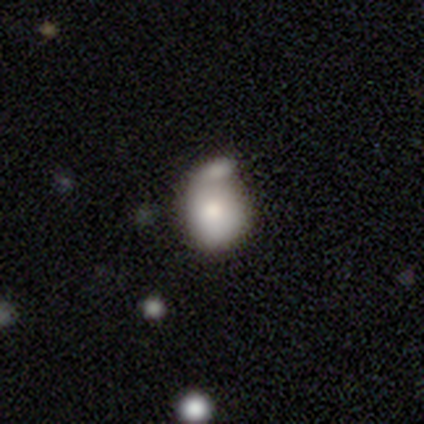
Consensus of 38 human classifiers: smooth-or-featured: smooth: 68% | featured or disk: 29% | star or artifact: 3%
  how-rounded: round: 58% | in between: 42% | cigar-shaped: 0%
  merging: none: 35% | minor disturbance: 32% | merger: 32% | major disturbance: 0%